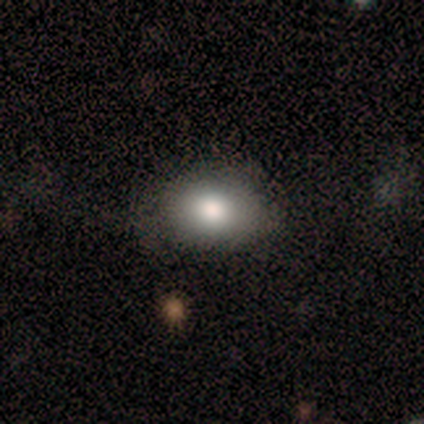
A smooth galaxy with no disk features (71%) that is in between round and cigar-shaped (100%). Merging: none (67%).